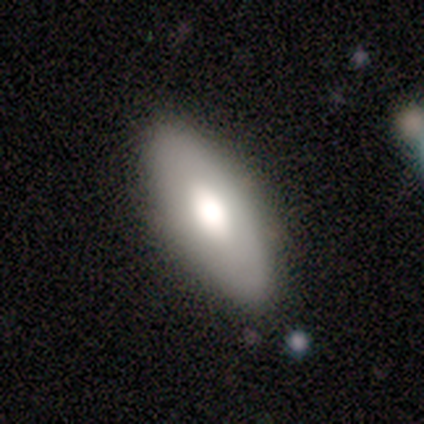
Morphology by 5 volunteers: A smooth galaxy with no disk features (60%) that is in between round and cigar-shaped (100%). Merging: none (100%).